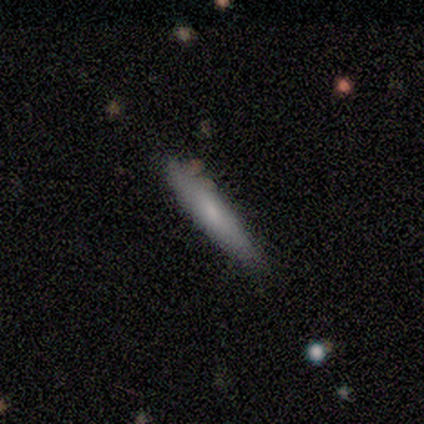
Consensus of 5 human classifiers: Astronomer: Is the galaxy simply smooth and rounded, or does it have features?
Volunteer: smooth — 60% (runner-up: featured or disk, 40%).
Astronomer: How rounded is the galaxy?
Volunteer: cigar-shaped — 100%.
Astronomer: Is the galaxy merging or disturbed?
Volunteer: none — 80%.